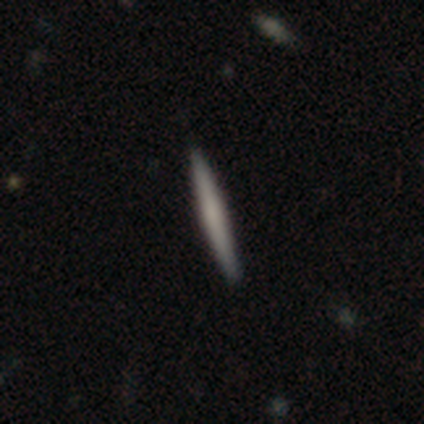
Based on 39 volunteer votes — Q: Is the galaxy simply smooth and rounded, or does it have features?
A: smooth — 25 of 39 (64%).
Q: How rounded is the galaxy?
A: cigar-shaped — 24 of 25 (96%).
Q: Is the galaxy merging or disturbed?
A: none — 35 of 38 (92%).